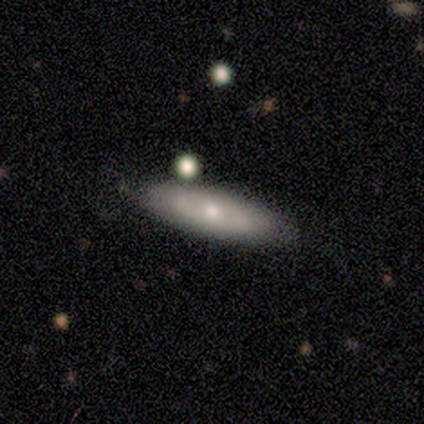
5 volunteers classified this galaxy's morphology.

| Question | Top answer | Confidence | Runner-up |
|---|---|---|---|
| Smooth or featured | smooth | 80% | star or artifact (20%) |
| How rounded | cigar-shaped | 75% | in between (25%) |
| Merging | none | 75% | minor disturbance (25%) |